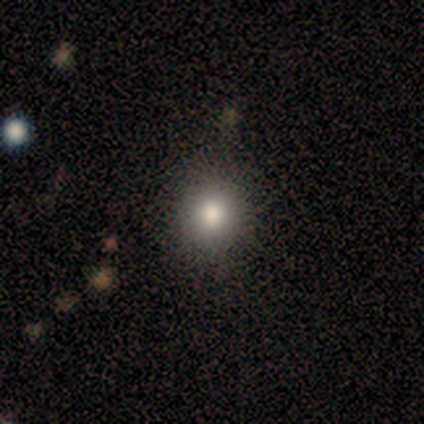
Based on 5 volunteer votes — Smooth or featured: smooth — 100%
How rounded: round — 100%
Merging: none — 100%